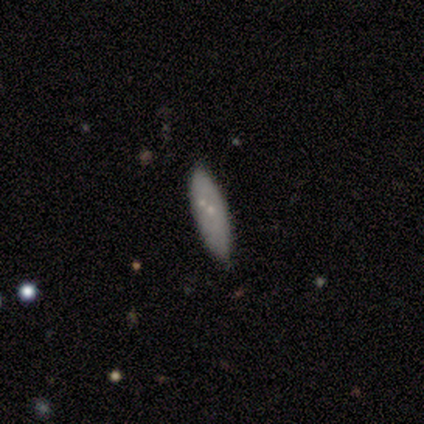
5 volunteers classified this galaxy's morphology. A featured or disk galaxy (60%) with no bar (100%), no spiral arms (100%) and a small central bulge (67%).

Vote fractions:
- Smooth or featured? featured or disk: 60% / smooth: 40% / star or artifact: 0%
- Edge-on disk? no: 100% / yes: 0%
- Bar? no: 100% / strong: 0% / weak: 0%
- Spiral arms? no: 100% / yes: 0%
- Bulge size? small: 67% / none: 33% / dominant: 0% / large: 0% / moderate: 0%
- Merging? none: 100% / minor disturbance: 0% / major disturbance: 0% / merger: 0%